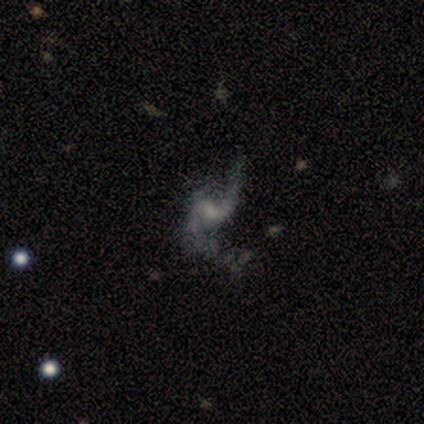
Overall: featured or disk (67%; smooth 33%). Edge-on disk: no (100%). Bar: weak (50%, tied with no). Spiral arms: yes (100%). Spiral arm count: 1 (50%, tied with 2). Spiral winding: loose (100%). Bulge size: moderate (50%, tied with none). Merging: none (67%; major disturbance 33%).